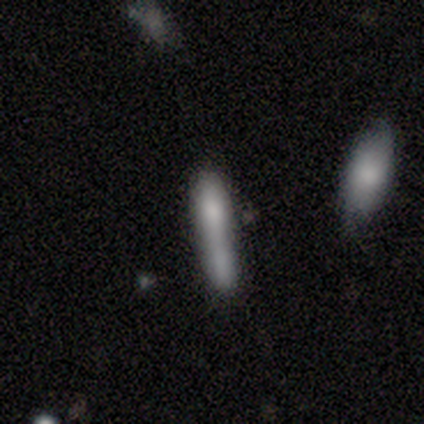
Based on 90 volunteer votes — A smooth galaxy with no disk features (77%) that is cigar-shaped (87%).

Vote fractions:
- Smooth or featured? smooth: 77% / featured or disk: 18% / star or artifact: 6%
- How rounded? cigar-shaped: 87% / in between: 12% / round: 1%
- Merging? merger: 40% / none: 39% / minor disturbance: 15% / major disturbance: 6%